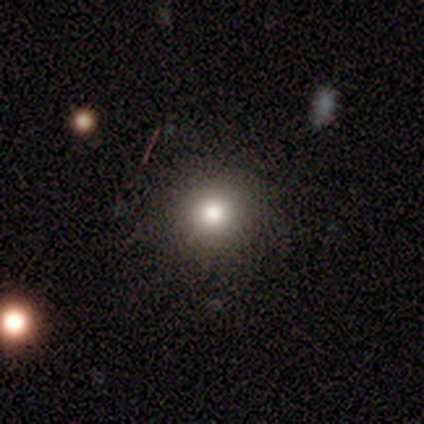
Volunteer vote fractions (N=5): This is clearly a smooth galaxy (100%). How rounded: clearly round (100%). Merging: clearly none (100%).